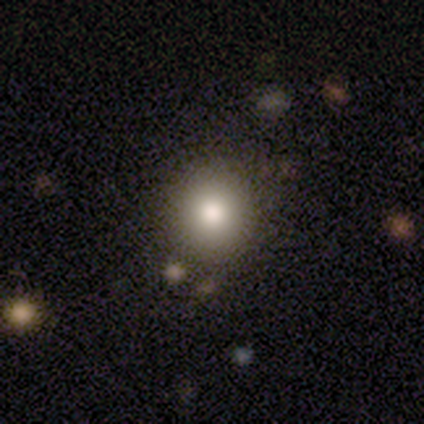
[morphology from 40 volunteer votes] smooth_or_featured: smooth (p=0.88) [alt: star or artifact p=0.07]
how_rounded: round (p=0.86) [alt: in between p=0.11]
merging: none (p=0.89) [alt: minor disturbance p=0.08]